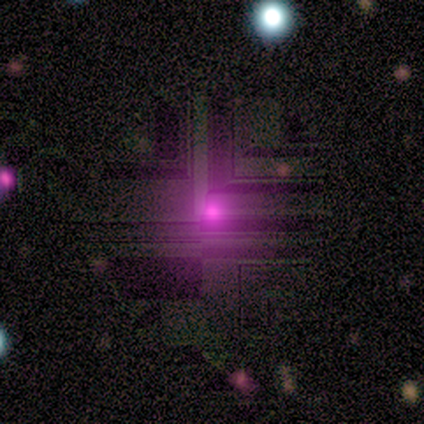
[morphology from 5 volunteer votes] smooth-or-featured: star or artifact: 80% | smooth: 20% | featured or disk: 0%